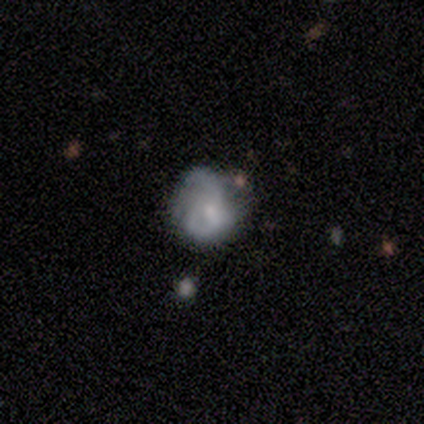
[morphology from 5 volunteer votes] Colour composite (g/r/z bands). It shows a smooth galaxy with no disk features (60%) that is round (67%). Merging: none (40%, tied with major disturbance).